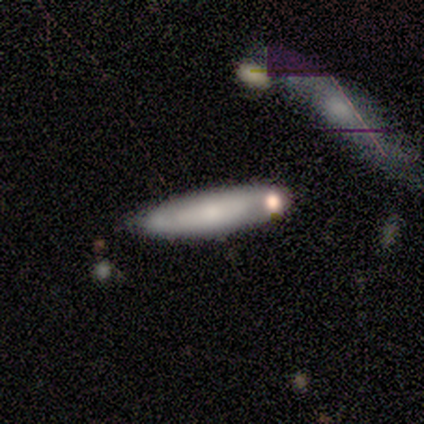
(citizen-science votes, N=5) smooth 80%, featured or disk 20%, star or artifact 0%. Down the decision tree: how rounded — cigar-shaped (75%); merging — none (40%, tied with merger).